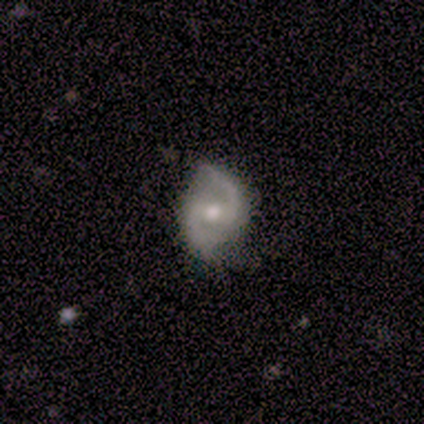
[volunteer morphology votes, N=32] featured or disk 84%, smooth 9%, star or artifact 6%. Down the decision tree: edge-on disk — no (100%); bar — weak (56%); spiral arms — yes (100%); spiral arm count — 2 (100%); spiral winding — loose (44%); bulge size — moderate (59%); merging — none (80%).